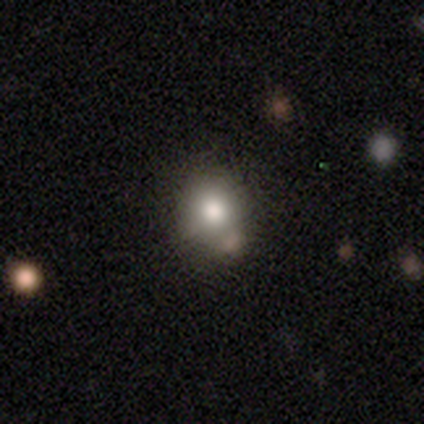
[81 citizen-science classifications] This is likely a smooth galaxy (68%). How rounded: likely round (76%). Merging: likely none (66%).